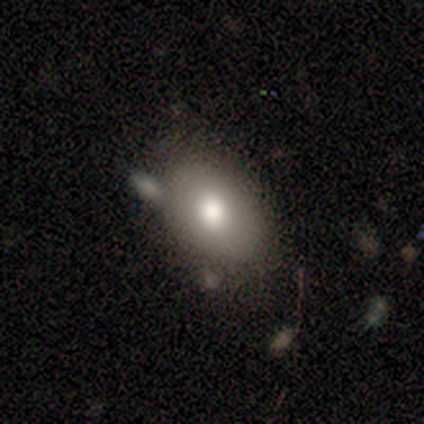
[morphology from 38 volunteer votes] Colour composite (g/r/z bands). It shows a smooth galaxy with no disk features (58%) that is in between round and cigar-shaped (68%). Merging: none (40%).